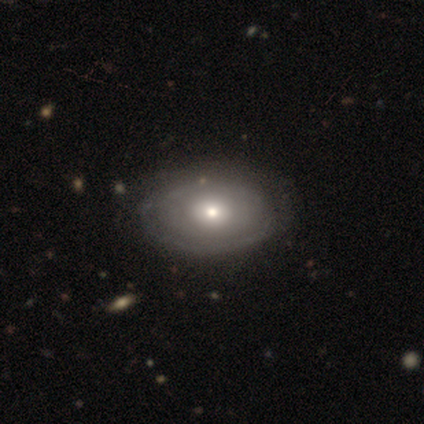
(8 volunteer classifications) Morphology: type=smooth (38%, tied with featured or disk); roundness=in between (100%); merging=none (100%).